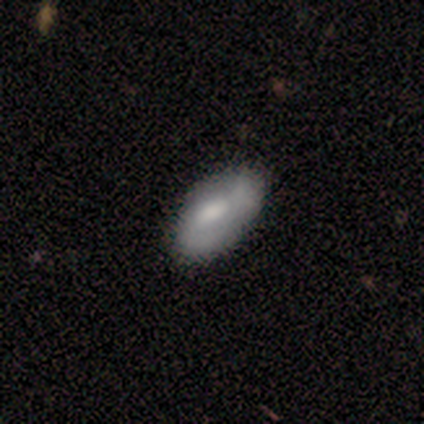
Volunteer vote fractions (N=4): Smooth or featured? 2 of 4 (50%, tied with featured or disk) said smooth. How rounded? 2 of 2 (100%) said in between. Merging? 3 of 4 (75%) said none.